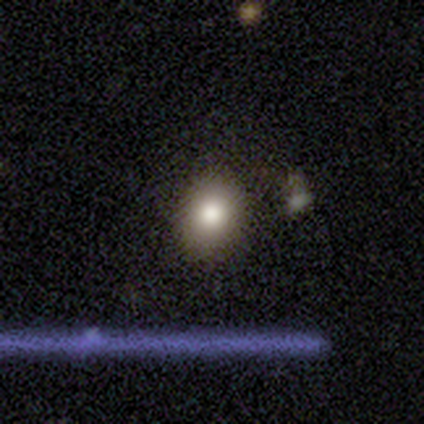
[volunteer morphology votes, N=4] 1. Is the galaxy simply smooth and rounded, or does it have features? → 100% smooth, 0% featured or disk, 0% star or artifact.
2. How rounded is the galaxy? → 100% in between, 0% round, 0% cigar-shaped.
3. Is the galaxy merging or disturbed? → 75% none, 25% minor disturbance, 0% major disturbance, 0% merger.